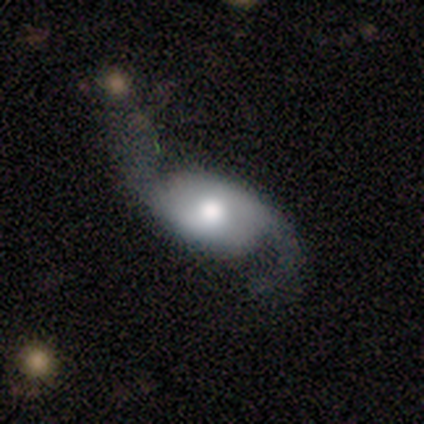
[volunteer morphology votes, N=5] A featured or disk galaxy (60%) with no bar (67%), 2 (100%) loose (100%) spiral arms (100%) and a moderate central bulge (67%). Merging: none (60%).